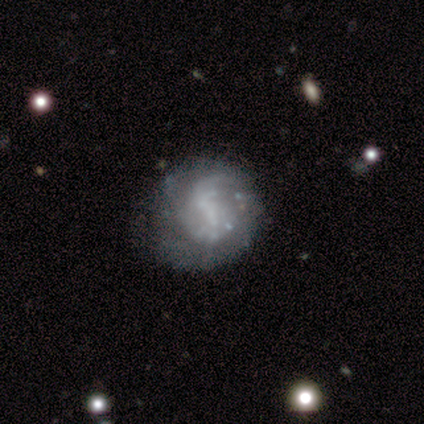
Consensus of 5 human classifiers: A featured or disk galaxy (60%) with a strong bar (33%, tied with weak and no), tight (33%, tied with medium and loose) spiral arms (100%) and no central bulge (100%). Merging: minor disturbance (75%).